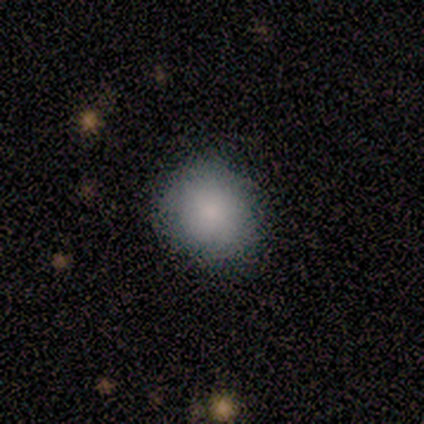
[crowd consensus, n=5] This is clearly a smooth galaxy (80%). How rounded: clearly round (100%). Merging: possibly none (50%).